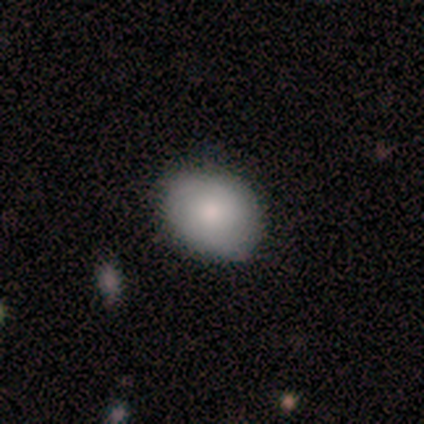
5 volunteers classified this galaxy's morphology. This is clearly a smooth galaxy (100%). How rounded: likely round (60%). Merging: clearly none (80%).